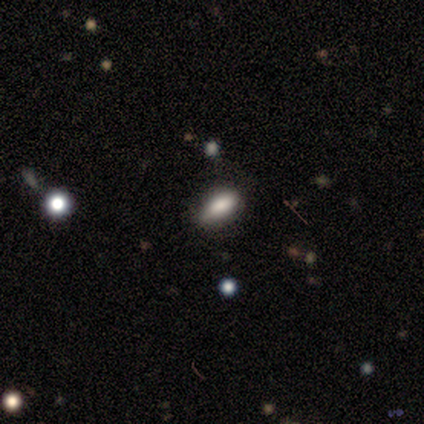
smooth-or-featured: smooth: 60% | featured or disk: 20% | star or artifact: 20%
  how-rounded: in between: 100% | round: 0% | cigar-shaped: 0%
  merging: none: 100% | minor disturbance: 0% | major disturbance: 0% | merger: 0%